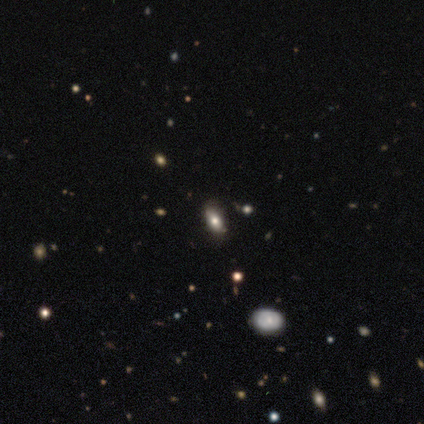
smooth 75%, featured or disk 25%, star or artifact 0%. Down the decision tree: how rounded — in between (100%); merging — minor disturbance (75%).